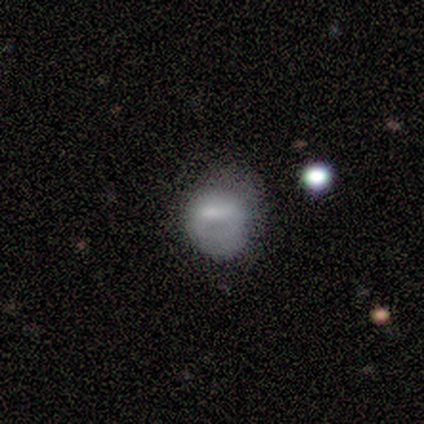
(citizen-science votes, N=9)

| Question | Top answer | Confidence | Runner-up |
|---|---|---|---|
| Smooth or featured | smooth | 78% | featured or disk (22%) |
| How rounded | round | 86% | in between (14%) |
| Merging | minor disturbance | 44% | none (33%) |